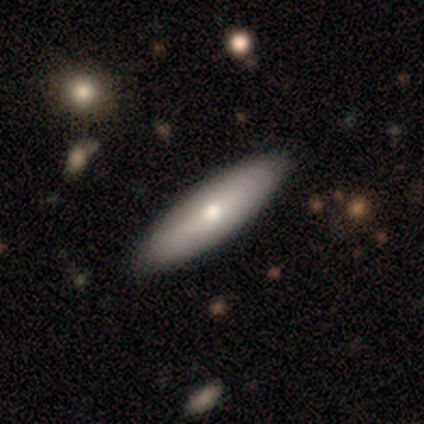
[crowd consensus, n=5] Q: Smooth or featured?
A: smooth (80%); runner-up: featured or disk (20%)
Q: How rounded?
A: in between (50%); tied with: cigar-shaped (50%)
Q: Merging?
A: none (100%)